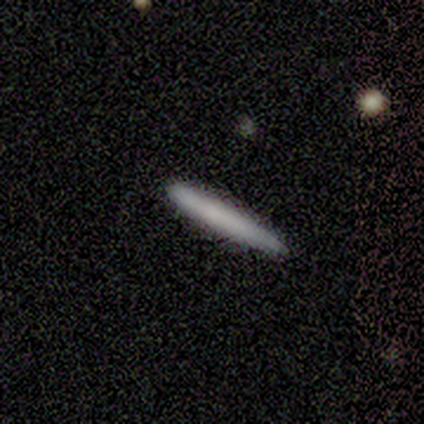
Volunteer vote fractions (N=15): This is clearly a smooth galaxy (87%). How rounded: clearly cigar-shaped (100%). Merging: clearly none (80%).